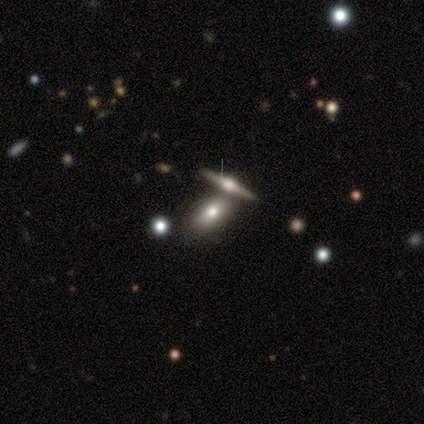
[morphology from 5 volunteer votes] A smooth galaxy with no disk features (80%) that is in between round and cigar-shaped (75%). Merging: none (40%, tied with merger).